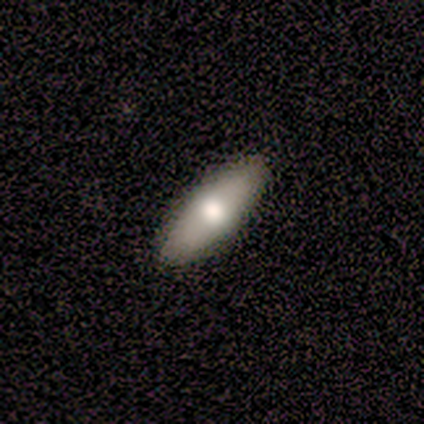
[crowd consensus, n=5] smooth-or-featured: smooth: 60% | featured or disk: 20% | star or artifact: 20%
  how-rounded: in between: 67% | cigar-shaped: 33% | round: 0%
  merging: none: 100% | minor disturbance: 0% | major disturbance: 0% | merger: 0%